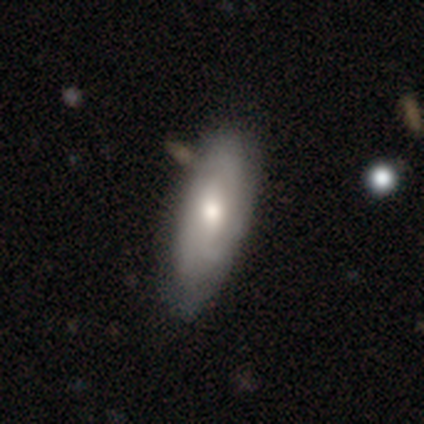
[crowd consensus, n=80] Q: Smooth or featured?
A: featured or disk (55%); runner-up: smooth (44%)
Q: Edge-on disk?
A: no (86%); runner-up: yes (14%)
Q: Bar?
A: no (61%); runner-up: weak (39%)
Q: Spiral arms?
A: yes (61%); runner-up: no (39%)
Q: Spiral winding?
A: medium (57%); runner-up: tight (30%)
Q: Spiral arm count?
A: can't tell (61%); runner-up: 2 (26%)
Q: Bulge size?
A: moderate (71%); runner-up: small (16%)
Q: Merging?
A: none (35%); runner-up: minor disturbance (9%)